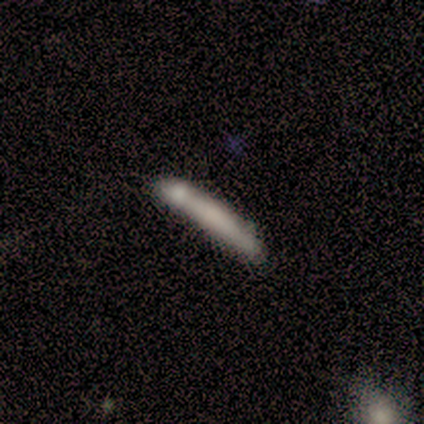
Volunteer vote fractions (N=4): smooth_or_featured: smooth (p=1.00)
how_rounded: cigar-shaped (p=1.00)
merging: none (p=0.75) [alt: minor disturbance p=0.25]